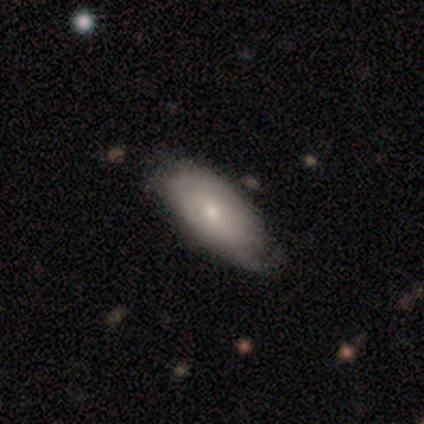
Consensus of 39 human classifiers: Overall: smooth (64%; featured or disk 33%). How rounded: in between (92%). Merging: none (61%; minor disturbance 34%).